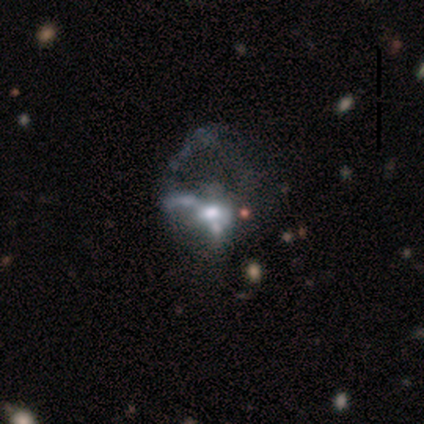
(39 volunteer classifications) Overall: featured or disk (69%). Edge-on disk: no (100%). Bar: no (89%). Spiral arms: no (78%). Bulge size: moderate (59%; small 22%). Merging: major disturbance (41%; none 16%).